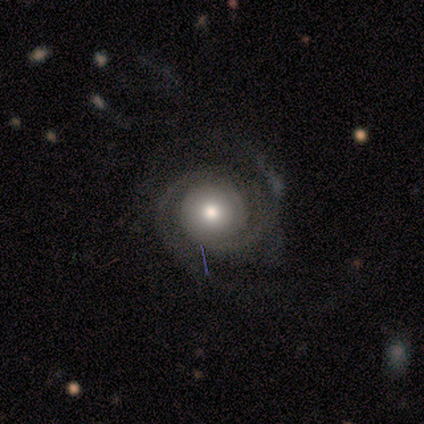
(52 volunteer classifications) Smooth or featured: featured or disk — 83% (smooth — 12%)
Edge-on disk: no — 95% (yes — 5%)
Bar: no — 85% (weak — 12%)
Spiral arms: yes — 95% (no — 5%)
Spiral winding: tight — 64% (medium — 33%)
Spiral arm count: 2 — 74% (can't tell — 13%)
Bulge size: moderate — 76% (large — 17%)
Merging: none — 61% (minor disturbance — 29%)